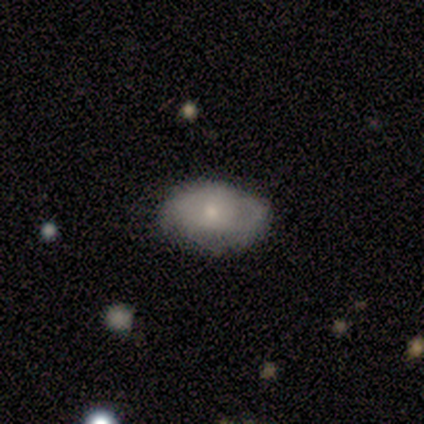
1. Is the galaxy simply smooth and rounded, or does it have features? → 60% smooth, 40% featured or disk, 0% star or artifact.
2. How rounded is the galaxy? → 67% in between, 33% round, 0% cigar-shaped.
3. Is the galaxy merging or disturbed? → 80% none, 20% minor disturbance, 0% major disturbance, 0% merger.